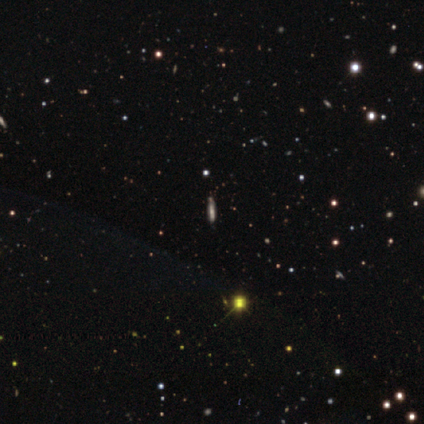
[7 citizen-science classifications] Smooth or featured?
  - star or artifact: 71% *
  - smooth: 14%
  - featured or disk: 14%